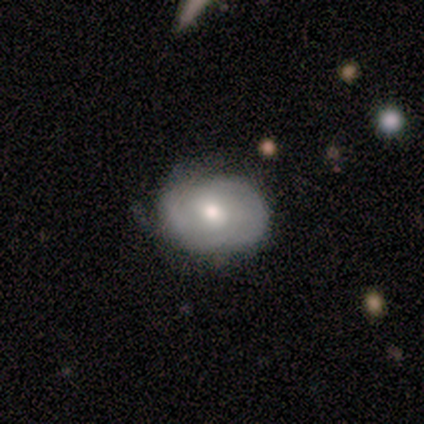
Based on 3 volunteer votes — Q: Smooth or featured?
A: featured or disk (67%); runner-up: star or artifact (33%)
Q: Edge-on disk?
A: no (100%)
Q: Bar?
A: no (100%)
Q: Spiral arms?
A: yes (50%); tied with: no (50%)
Q: Spiral winding?
A: tight (100%)
Q: Spiral arm count?
A: 2 (100%)
Q: Bulge size?
A: moderate (100%)
Q: Merging?
A: minor disturbance (100%)